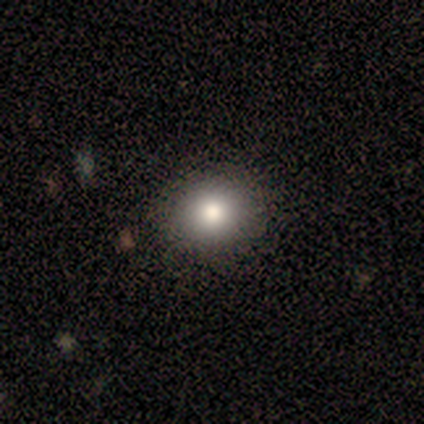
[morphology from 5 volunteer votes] A smooth galaxy with no disk features (80%) that is round (100%). Merging: none (100%).